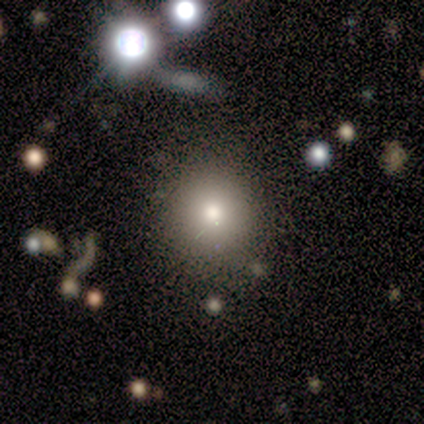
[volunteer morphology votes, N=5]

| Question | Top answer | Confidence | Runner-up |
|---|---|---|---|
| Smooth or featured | smooth | 80% | featured or disk (20%) |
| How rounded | round | 100% | — |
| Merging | none | 80% | minor disturbance (20%) |